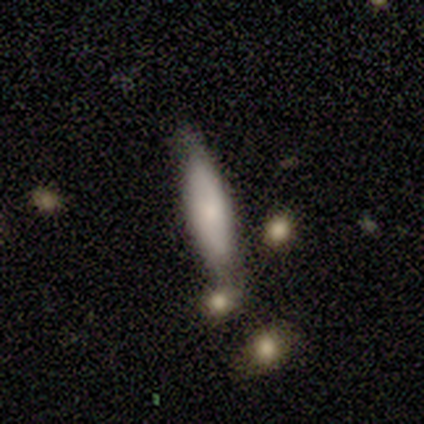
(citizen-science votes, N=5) Overall: smooth (60%; featured or disk 40%). How rounded: cigar-shaped (100%). Merging: none (100%).